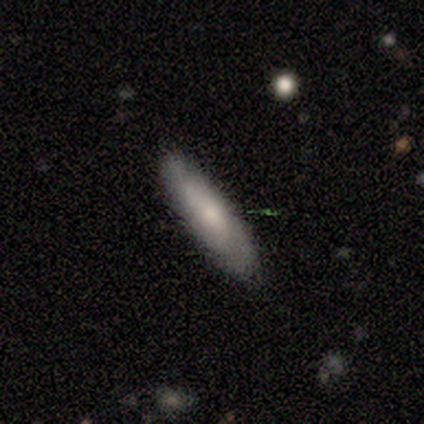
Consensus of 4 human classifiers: This is possibly a smooth galaxy (50%, tied with featured or disk). How rounded: clearly in between (100%). Merging: clearly none (100%).